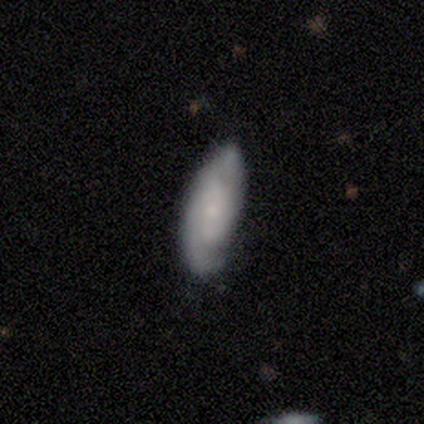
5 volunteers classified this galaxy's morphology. type=smooth (40%, tied with featured or disk); roundness=in between (50%, tied with cigar-shaped); merging=none (75%).